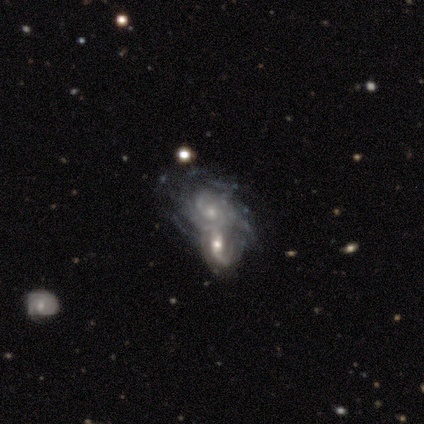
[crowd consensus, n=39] featured or disk 87%, smooth 8%, star or artifact 5%. Down the decision tree: edge-on disk — no (97%); bar — no (76%); spiral arms — yes (94%); spiral arm count — can't tell (48%); spiral winding — tight (61%); bulge size — small (64%); merging — merger (73%).